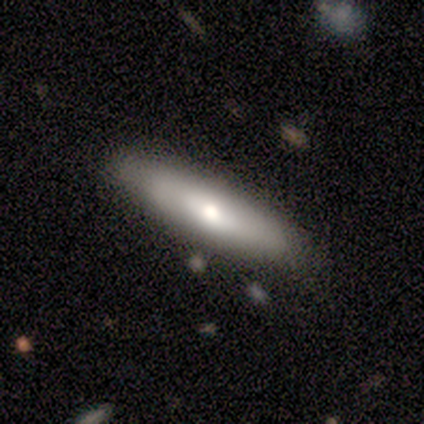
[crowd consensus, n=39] Morphology: type=smooth (51%); roundness=cigar-shaped (85%); merging=none (89%).